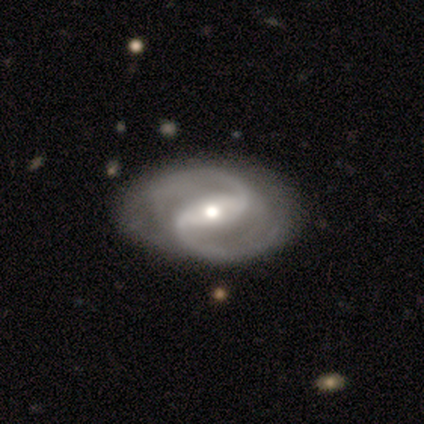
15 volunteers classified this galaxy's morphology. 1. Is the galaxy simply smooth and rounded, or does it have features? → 100% featured or disk, 0% smooth, 0% star or artifact.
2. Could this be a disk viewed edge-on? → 100% no, 0% yes.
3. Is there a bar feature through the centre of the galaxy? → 60% strong, 40% weak, 0% no.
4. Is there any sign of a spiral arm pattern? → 100% yes, 0% no.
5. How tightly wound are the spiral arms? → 60% medium, 27% tight, 13% loose.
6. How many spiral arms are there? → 87% 2, 13% 3, 0% 1, 0% 4, 0% more than 4, 0% can't tell.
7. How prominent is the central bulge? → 47% moderate, 40% small, 13% large, 0% dominant, 0% none.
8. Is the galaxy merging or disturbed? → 67% none, 33% minor disturbance, 0% major disturbance, 0% merger.